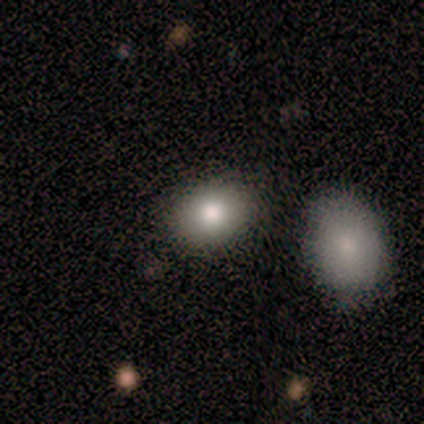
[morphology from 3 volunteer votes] smooth-or-featured: smooth: 100% | featured or disk: 0% | star or artifact: 0%
  how-rounded: in between: 67% | round: 33% | cigar-shaped: 0%
  merging: none: 67% | merger: 33% | minor disturbance: 0% | major disturbance: 0%